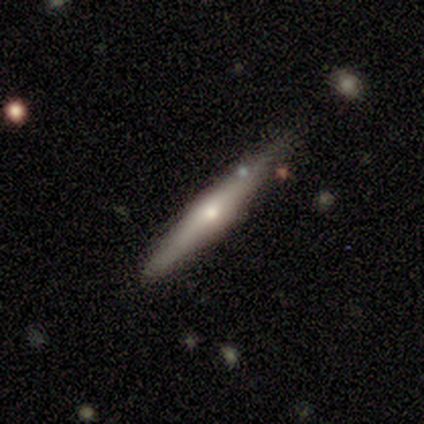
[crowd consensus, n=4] A featured or disk galaxy (100%) viewed edge-on (100%) with a rounded central bulge (50%).

Vote fractions:
- Smooth or featured? featured or disk: 100% / smooth: 0% / star or artifact: 0%
- Edge-on disk? yes: 100% / no: 0%
- Edge-on bulge? rounded: 50% / boxy: 25% / none: 25%
- Merging? minor disturbance: 75% / none: 25% / major disturbance: 0% / merger: 0%